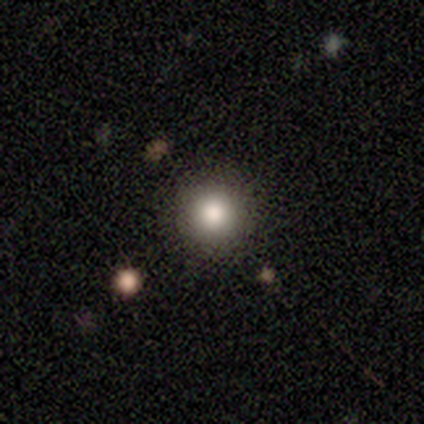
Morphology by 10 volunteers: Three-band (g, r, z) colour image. It shows a smooth galaxy with no disk features (100%) that is round (100%). Merging: none (90%).